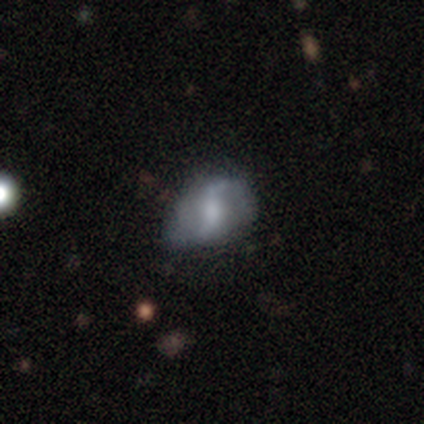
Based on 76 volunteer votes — Smooth or featured: featured or disk — 68% (smooth — 26%)
Edge-on disk: no — 98% (yes — 2%)
Bar: weak — 43% (strong — 37%)
Spiral arms: yes — 94% (no — 6%)
Spiral winding: loose — 73% (medium — 21%)
Spiral arm count: 2 — 81% (can't tell — 12%)
Bulge size: moderate — 45% (small — 24%)
Merging: none — 25% (tied with minor disturbance — 25%)